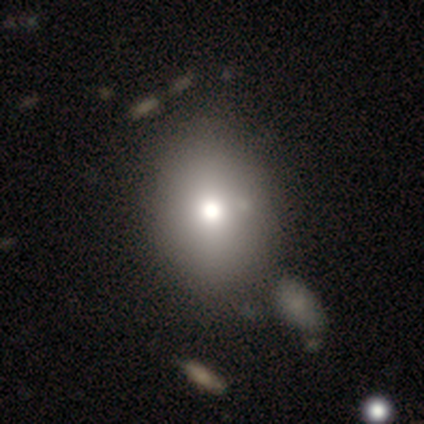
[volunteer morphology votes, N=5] Smooth or featured? smooth (80%)
How rounded? round (50%, tied with in between)
Merging? none (80%)